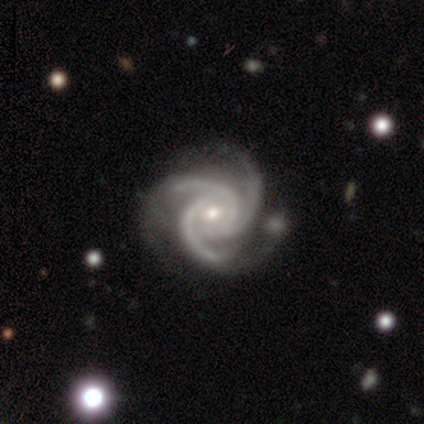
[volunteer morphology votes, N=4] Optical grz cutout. It shows a featured or disk galaxy (100%) with no bar (50%), 3 (75%) tight (75%) spiral arms (100%) and a moderate central bulge (75%). Merging: none (75%).